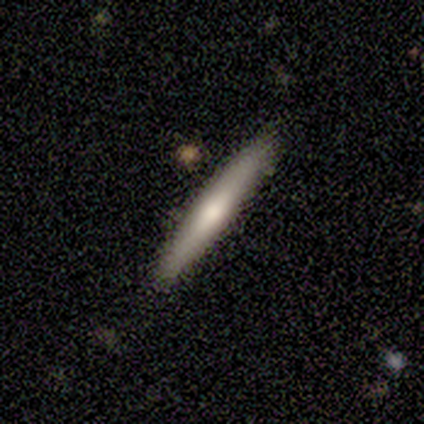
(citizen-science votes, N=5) featured or disk 60%, smooth 40%, star or artifact 0%. Down the decision tree: edge-on disk — yes (67%); edge-on bulge — rounded (100%); merging — none (100%).